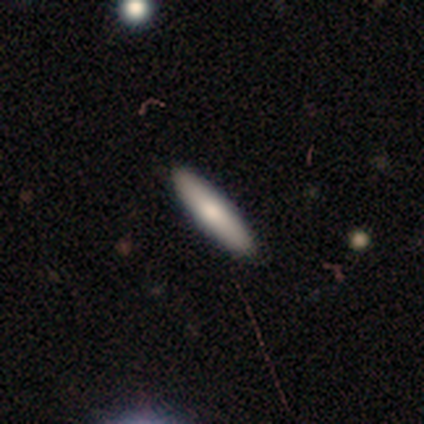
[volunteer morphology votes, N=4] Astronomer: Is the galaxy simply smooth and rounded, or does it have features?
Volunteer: smooth — 50%, tied with featured or disk at 50%.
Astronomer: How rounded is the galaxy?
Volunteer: in between — 50%, tied with cigar-shaped at 50%.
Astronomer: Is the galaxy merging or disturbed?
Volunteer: none — 75%.